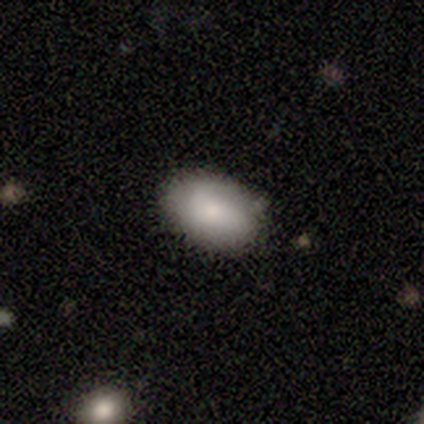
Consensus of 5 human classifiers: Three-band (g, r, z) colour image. It shows a smooth galaxy with no disk features (80%) that is in between round and cigar-shaped (100%). Merging: none (80%).